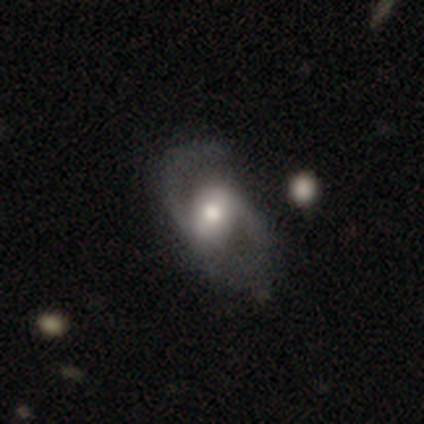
A featured or disk galaxy (95%) with a weak bar (37%), 2 (100%) loose (61%) spiral arms (94%) and a moderate central bulge (69%).

Vote fractions:
- Smooth or featured? featured or disk: 95% / smooth: 3% / star or artifact: 3%
- Edge-on disk? no: 100% / yes: 0%
- Bar? weak: 37% / no: 34% / strong: 29%
- Spiral arms? yes: 94% / no: 6%
- Spiral winding? loose: 61% / medium: 39% / tight: 0%
- Spiral arm count? 2: 100% / 1: 0% / 3: 0% / 4: 0% / more than 4: 0% / can't tell: 0%
- Bulge size? moderate: 69% / large: 20% / small: 9% / dominant: 3% / none: 0%
- Merging? none: 58% / minor disturbance: 8% / major disturbance: 8% / merger: 3%